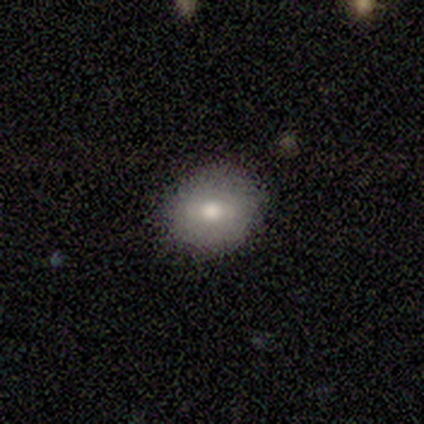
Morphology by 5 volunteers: type=smooth (100%); roundness=round (60%); merging=none (80%).